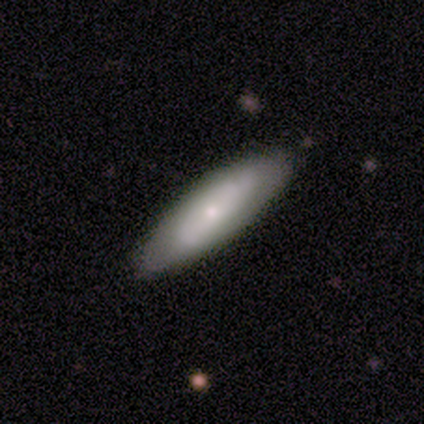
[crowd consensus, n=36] smooth-or-featured: featured or disk: 53% | smooth: 39% | star or artifact: 8%
  disk-edge-on: no: 84% | yes: 16%
    bar: no: 88% | strong: 6% | weak: 6%
    has-spiral-arms: yes: 69% | no: 31%
      spiral-winding: tight: 73% | medium: 27% | loose: 0%
      spiral-arm-count: can't tell: 82% | 2: 18% | 1: 0% | 3: 0% | 4: 0% | more than 4: 0%
    bulge-size: small: 81% | moderate: 19% | dominant: 0% | large: 0% | none: 0%
  merging: none: 88% | major disturbance: 6% | minor disturbance: 3% | merger: 3%